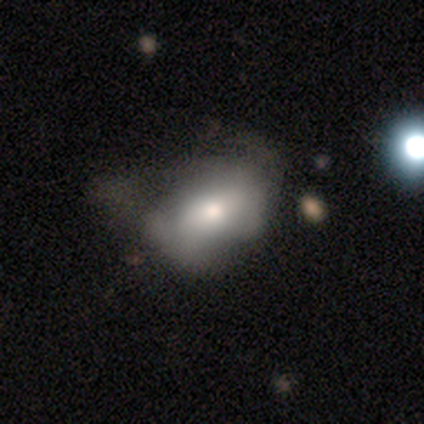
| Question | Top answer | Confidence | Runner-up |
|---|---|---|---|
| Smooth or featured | smooth | 65% | featured or disk (27%) |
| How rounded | in between | 83% | round (8%) |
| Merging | major disturbance | 44% | none (24%) |